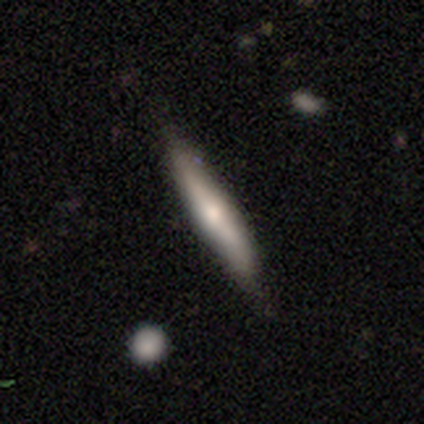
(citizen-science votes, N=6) Smooth or featured: featured or disk — 67% (smooth — 17%)
Edge-on disk: yes — 75% (no — 25%)
Edge-on bulge: rounded — 67% (none — 33%)
Merging: none — 60% (minor disturbance — 20%)